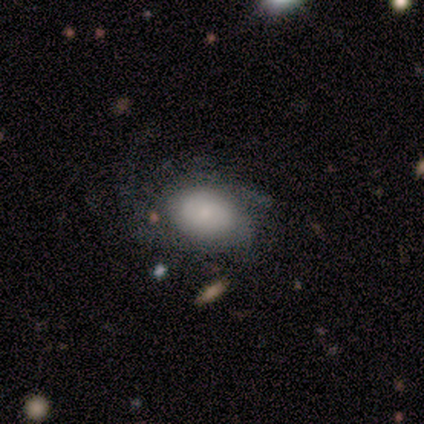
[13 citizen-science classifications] Smooth or featured? 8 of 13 (62%) said smooth. How rounded? 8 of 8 (100%) said in between. Merging? 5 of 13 (38%) said major disturbance.